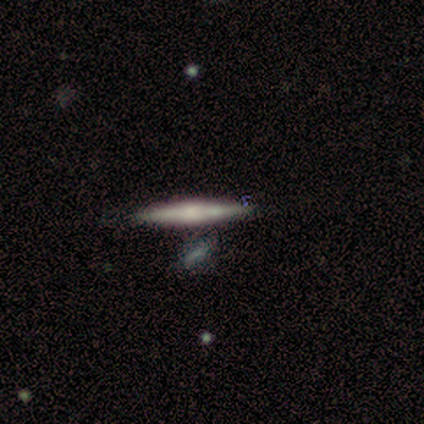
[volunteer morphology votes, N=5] Overall: featured or disk (60%; smooth 40%). Edge-on disk: yes (100%). Edge-on bulge: none (67%; boxy 33%). Merging: none (60%; minor disturbance 20%).